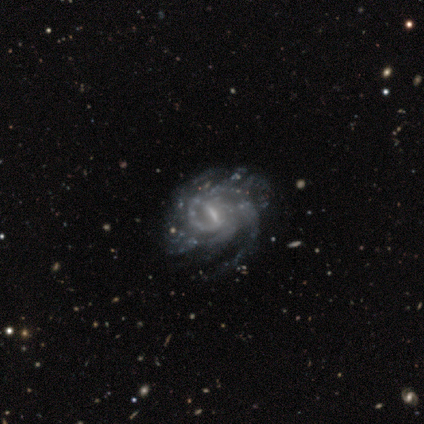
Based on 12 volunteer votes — Smooth or featured: featured or disk — 92% (star or artifact — 8%)
Edge-on disk: no — 100%
Bar: strong — 45% (tied with weak — 45%)
Spiral arms: yes — 100%
Spiral winding: tight — 45% (tied with medium — 45%)
Spiral arm count: 2 — 27% (tied with 3 — 27%)
Bulge size: small — 55% (moderate — 45%)
Merging: none — 55% (major disturbance — 27%)